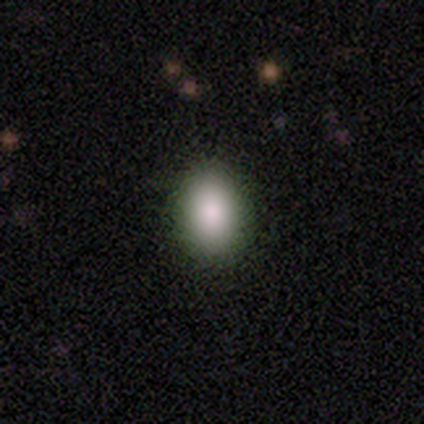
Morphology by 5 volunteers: Smooth or featured?
  - smooth: 100% *
  - featured or disk: 0%
  - star or artifact: 0%
How rounded?
  - round: 60% *
  - in between: 40%
  - cigar-shaped: 0%
Merging?
  - none: 100% *
  - minor disturbance: 0%
  - major disturbance: 0%
  - merger: 0%